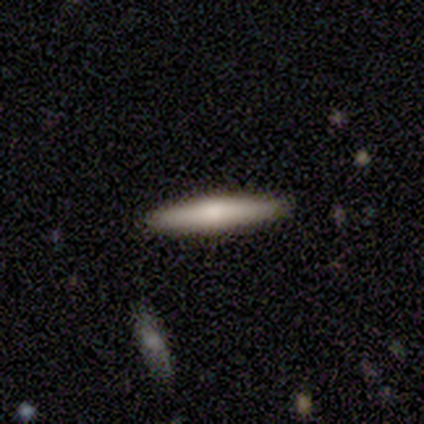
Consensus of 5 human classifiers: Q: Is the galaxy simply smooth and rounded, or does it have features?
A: smooth — 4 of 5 (80%).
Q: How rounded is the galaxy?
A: cigar-shaped — 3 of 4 (75%).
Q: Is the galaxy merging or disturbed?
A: none — 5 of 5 (100%).